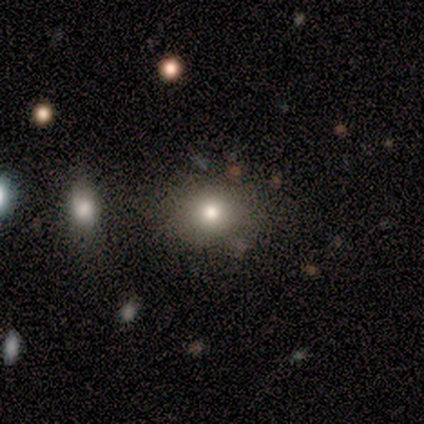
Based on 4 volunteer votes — Smooth or featured: smooth — 100%
How rounded: round — 50% (tied with in between — 50%)
Merging: none — 100%